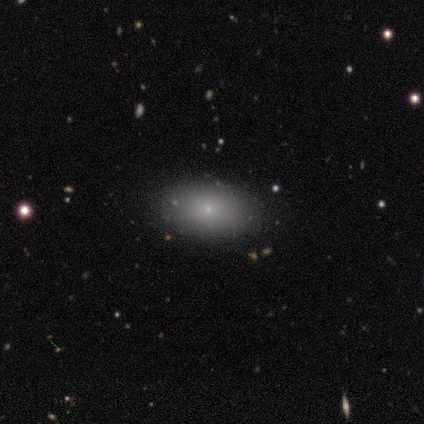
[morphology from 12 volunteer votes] Smooth or featured? smooth (75%)
How rounded? in between (100%)
Merging? none (91%)